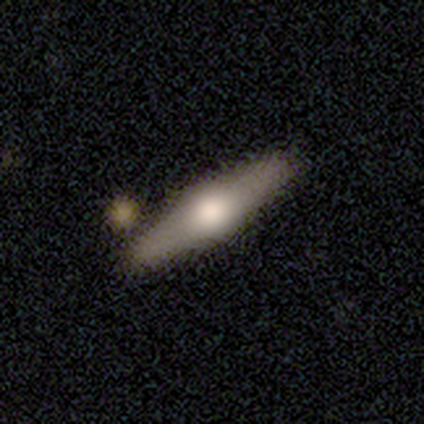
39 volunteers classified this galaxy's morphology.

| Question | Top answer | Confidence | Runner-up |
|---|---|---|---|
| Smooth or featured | featured or disk | 69% | smooth (26%) |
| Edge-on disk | yes | 89% | no (11%) |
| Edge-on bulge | rounded | 88% | boxy (12%) |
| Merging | none | 62% | merger (14%) |